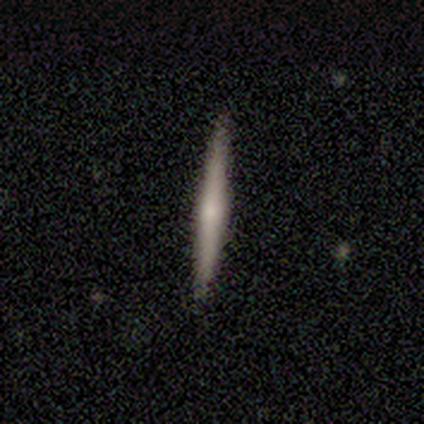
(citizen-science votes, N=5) Smooth or featured: featured or disk — 60% (smooth — 40%)
Edge-on disk: yes — 100%
Edge-on bulge: rounded — 67% (boxy — 33%)
Merging: none — 100%